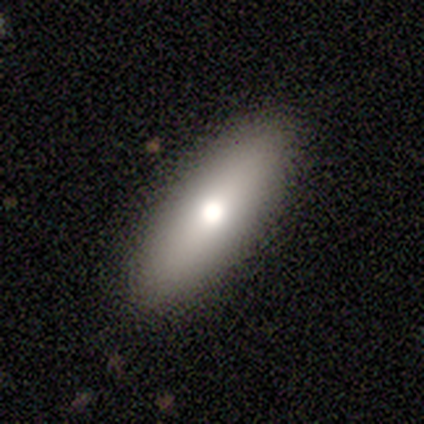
This is likely a featured or disk galaxy (60%). It is clearly viewed edge-on (100%). Edge-on bulge: likely rounded (67%). Merging: clearly none (100%).